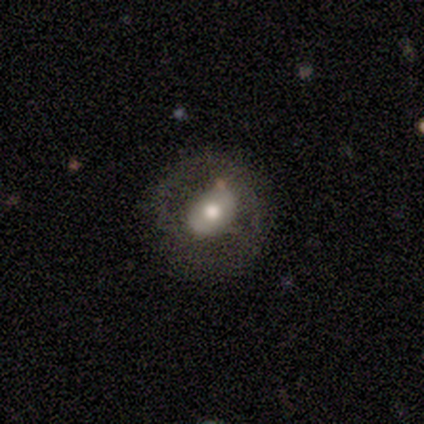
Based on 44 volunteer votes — This appears to be a featured or disk galaxy (64%) with no bar (63%), no spiral arms (74%) and a moderate central bulge (74%). Merging: none (70%).